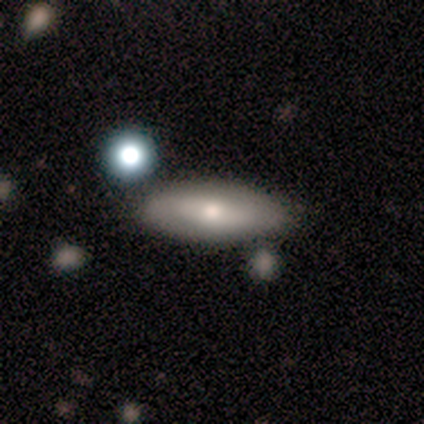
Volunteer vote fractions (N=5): Smooth or featured: smooth — 80% (featured or disk — 20%)
How rounded: in between — 100%
Merging: none — 80% (merger — 20%)